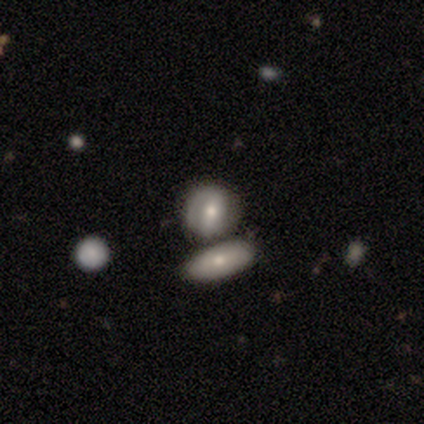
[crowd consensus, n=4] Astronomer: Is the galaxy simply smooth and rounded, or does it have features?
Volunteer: smooth — 50%.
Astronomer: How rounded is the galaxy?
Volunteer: round — 100%.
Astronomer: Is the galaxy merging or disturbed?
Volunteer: merger — 100%.